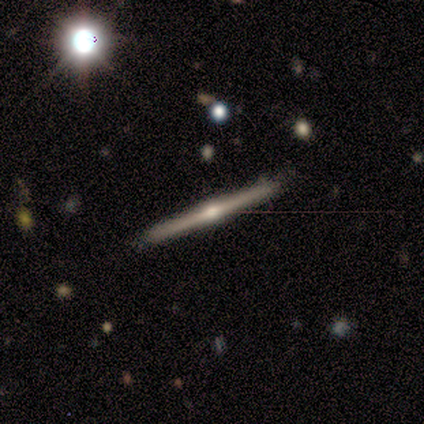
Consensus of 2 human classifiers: smooth_or_featured: featured or disk (p=1.00)
disk_edge_on: yes (p=1.00)
edge_on_bulge: rounded (p=1.00)
merging: none (p=1.00)